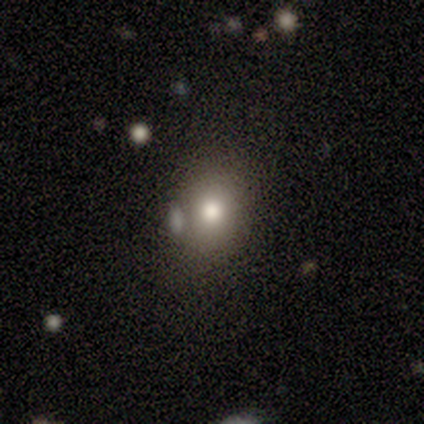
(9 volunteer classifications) Smooth or featured: smooth — 67% (star or artifact — 22%)
How rounded: in between — 67% (round — 33%)
Merging: none — 43% (merger — 29%)